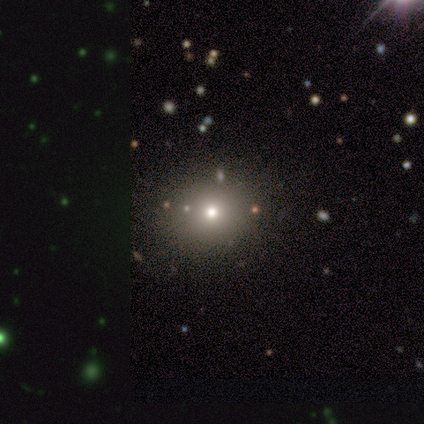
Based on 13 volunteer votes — Smooth or featured?
  - smooth: 69% *
  - featured or disk: 15%
  - star or artifact: 15%
How rounded?
  - round: 78% *
  - in between: 22%
  - cigar-shaped: 0%
Merging?
  - none: 91% *
  - major disturbance: 9%
  - minor disturbance: 0%
  - merger: 0%